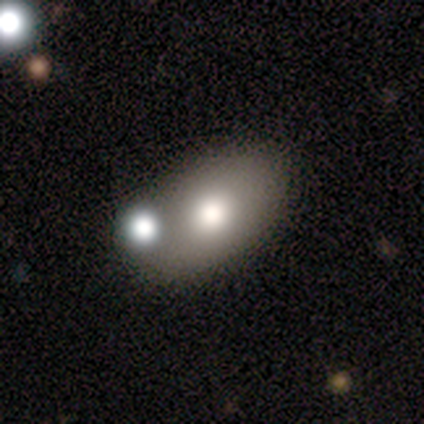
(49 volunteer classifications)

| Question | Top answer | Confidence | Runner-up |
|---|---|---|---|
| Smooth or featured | smooth | 63% | featured or disk (24%) |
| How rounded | in between | 100% | — |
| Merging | none | 63% | minor disturbance (16%) |